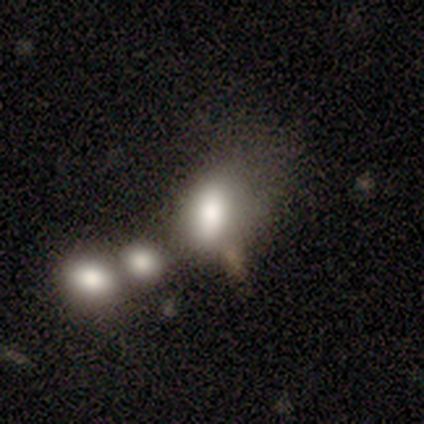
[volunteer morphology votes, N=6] This is likely a smooth galaxy (67%). How rounded: clearly in between (100%). Merging: likely merger (60%).